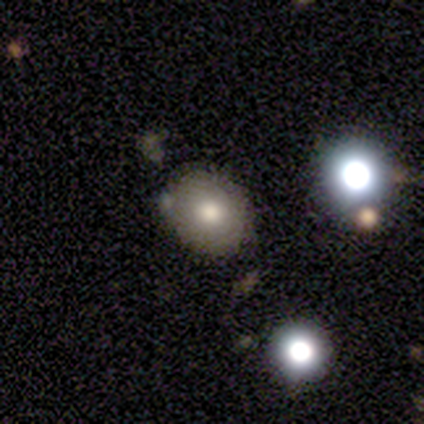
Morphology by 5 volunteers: Volunteers were most divided on "how rounded": in between: 67%, round: 33%, cigar-shaped: 0%. More confident: merging — none (100%); smooth or featured — smooth (60%).